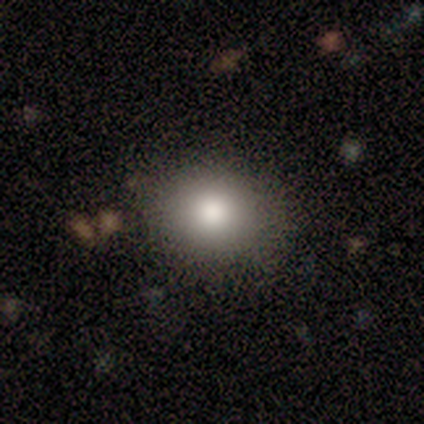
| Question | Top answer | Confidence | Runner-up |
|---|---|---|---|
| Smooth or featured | smooth | 100% | — |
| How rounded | round | 80% | in between (20%) |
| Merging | none | 80% | major disturbance (20%) |